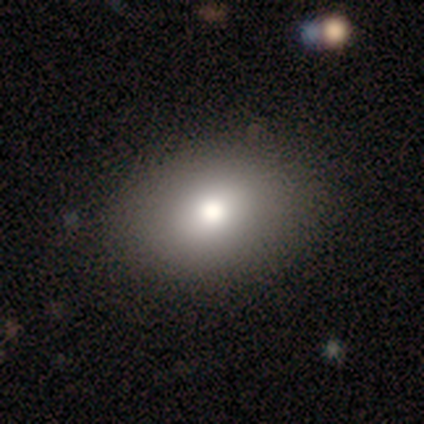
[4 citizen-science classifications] This is clearly a smooth galaxy (100%). How rounded: clearly in between (100%). Merging: clearly none (100%).